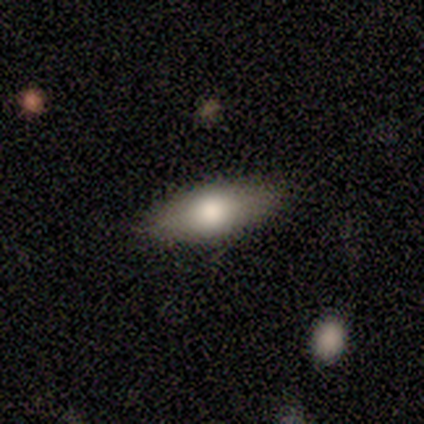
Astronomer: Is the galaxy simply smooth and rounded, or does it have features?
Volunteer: smooth — 70%.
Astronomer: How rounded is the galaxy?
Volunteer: in between — 71%.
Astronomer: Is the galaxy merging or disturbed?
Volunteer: none — 89%.